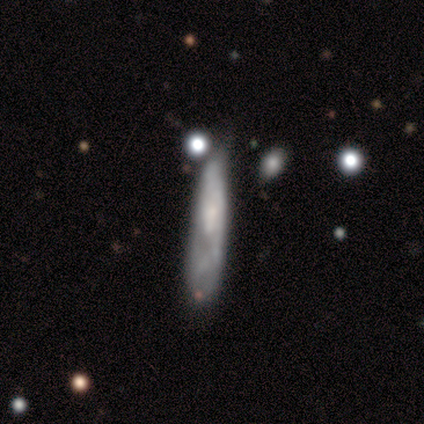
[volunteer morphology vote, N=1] Smooth or featured?
  - featured or disk: 100% *
  - smooth: 0%
  - star or artifact: 0%
Edge-on disk?
  - no: 100% *
  - yes: 0%
Bar?
  - no: 100% *
  - strong: 0%
  - weak: 0%
Spiral arms?
  - yes: 100% *
  - no: 0%
Spiral winding?
  - tight: 100% *
  - medium: 0%
  - loose: 0%
Spiral arm count?
  - 2: 100% *
  - 1: 0%
  - 3: 0%
  - 4: 0%
  - more than 4: 0%
  - can't tell: 0%
Bulge size?
  - moderate: 100% *
  - dominant: 0%
  - large: 0%
  - small: 0%
  - none: 0%
Merging?
  - major disturbance: 100% *
  - none: 0%
  - minor disturbance: 0%
  - merger: 0%